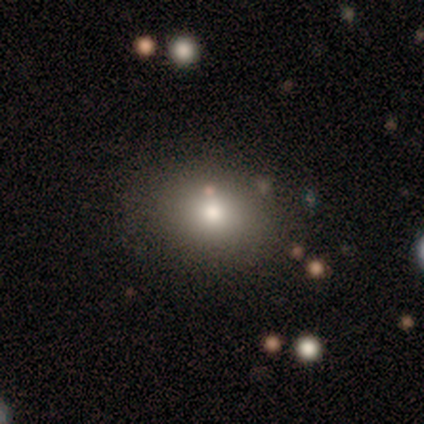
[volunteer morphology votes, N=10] Volunteers were most divided on "how rounded": in between: 57%, round: 43%, cigar-shaped: 0%. More confident: merging — none (100%); smooth or featured — smooth (70%).